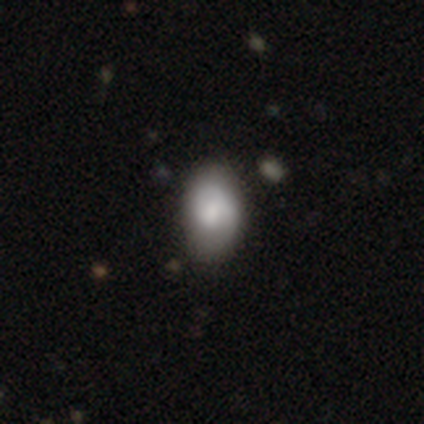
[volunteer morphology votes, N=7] A smooth galaxy with no disk features (71%) that is in between round and cigar-shaped (100%).

Vote fractions:
- Smooth or featured? smooth: 71% / featured or disk: 29% / star or artifact: 0%
- How rounded? in between: 100% / round: 0% / cigar-shaped: 0%
- Merging? none: 71% / minor disturbance: 29% / major disturbance: 0% / merger: 0%